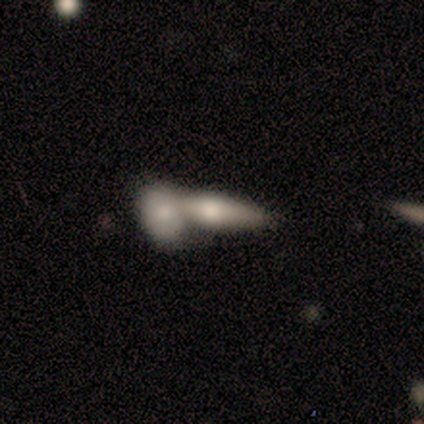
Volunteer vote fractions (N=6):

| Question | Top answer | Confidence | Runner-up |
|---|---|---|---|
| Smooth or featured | featured or disk | 50% | smooth (33%) |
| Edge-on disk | no | 100% | — |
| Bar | no | 67% | weak (33%) |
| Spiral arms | no | 100% | — |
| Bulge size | large | 33% | tied: moderate (33%), none (33%) |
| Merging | merger | 80% | none (20%) |